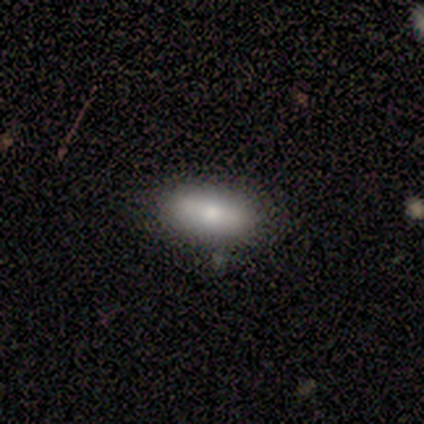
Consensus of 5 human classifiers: Overall: smooth (100%). How rounded: in between (100%). Merging: none (60%; minor disturbance 20%).